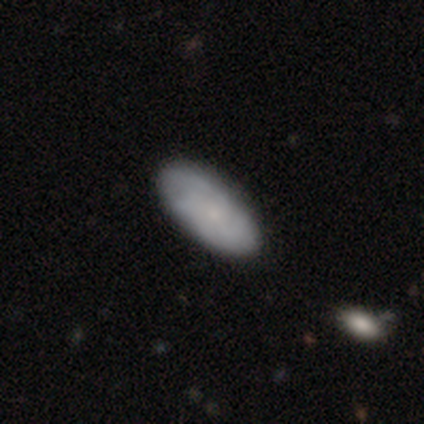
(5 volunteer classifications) This appears to be a smooth galaxy with no disk features (60%) that is in between round and cigar-shaped (67%). Merging: none (100%).